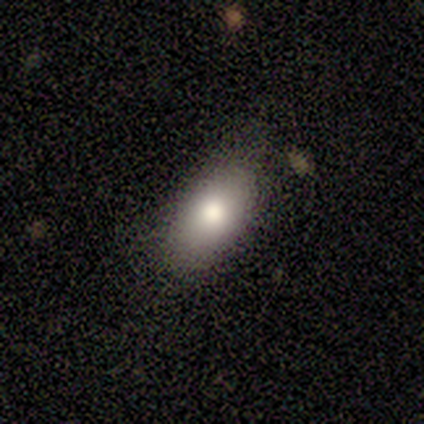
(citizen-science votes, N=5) Q: Smooth or featured?
A: smooth (80%); runner-up: star or artifact (20%)
Q: How rounded?
A: in between (75%); runner-up: round (25%)
Q: Merging?
A: none (100%)